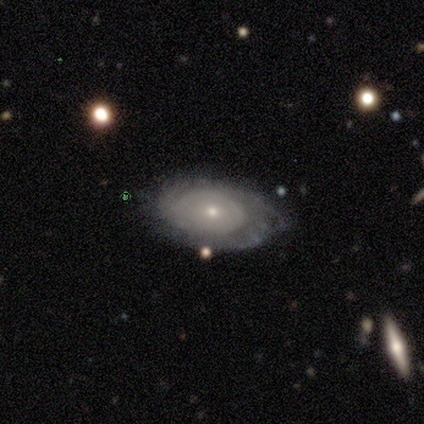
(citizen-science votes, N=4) A smooth galaxy with no disk features (50%, tied with featured or disk) that is in between round and cigar-shaped (100%). Merging: none (75%).